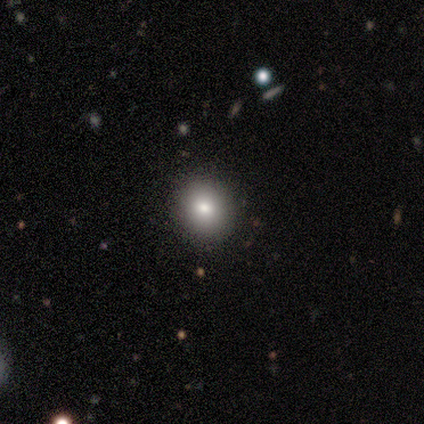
Smooth or featured: smooth — 80% (star or artifact — 20%)
How rounded: round — 75% (in between — 25%)
Merging: none — 100%